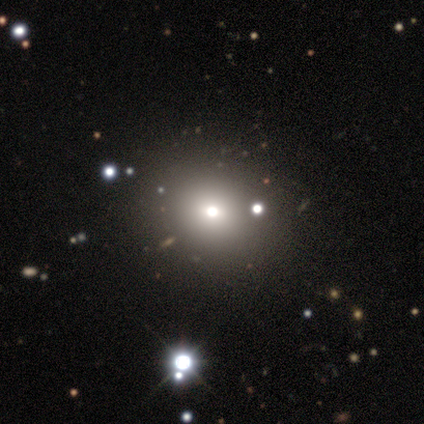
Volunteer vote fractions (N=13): Volunteers were most divided on "merging": none: 27%, merger: 18%, minor disturbance: 9%, major disturbance: 0%. More confident: how rounded — round (75%); smooth or featured — smooth (62%).